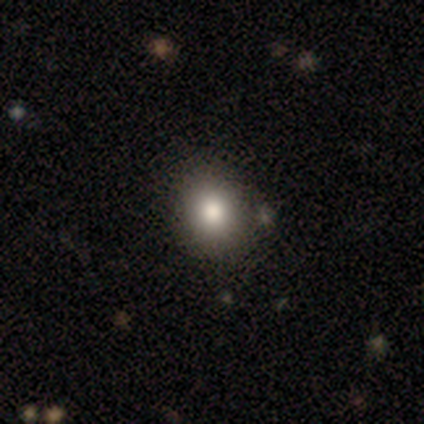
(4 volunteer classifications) Volunteers were most divided on "how rounded": round: 67%, in between: 33%, cigar-shaped: 0%. More confident: merging — none (100%); smooth or featured — smooth (75%).